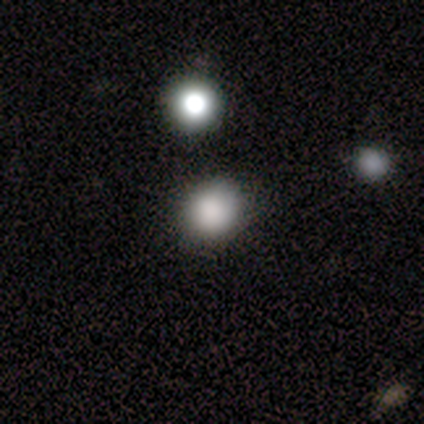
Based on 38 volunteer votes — Smooth or featured? 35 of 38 (92%) said smooth. How rounded? 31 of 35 (89%) said round. Merging? 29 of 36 (81%) said none.